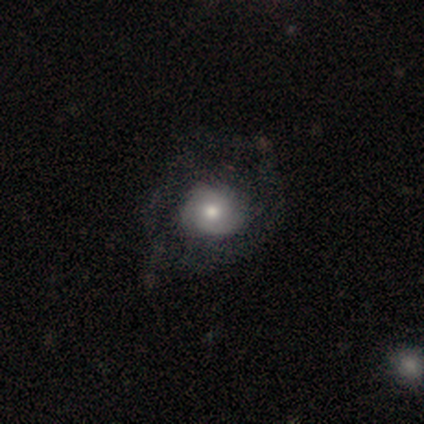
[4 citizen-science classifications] Smooth or featured? 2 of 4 (50%, tied with featured or disk) said smooth. How rounded? 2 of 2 (100%) said round. Merging? 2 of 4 (50%, tied with major disturbance) said none.